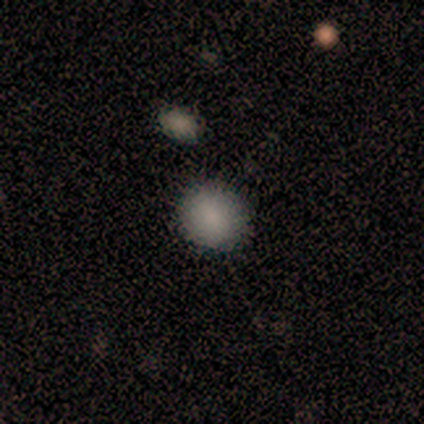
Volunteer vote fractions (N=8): Overall: smooth (100%). How rounded: round (88%). Merging: none (100%).